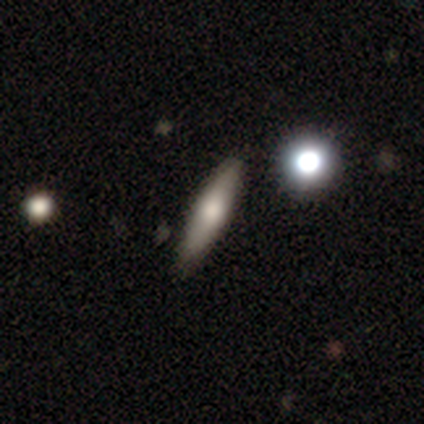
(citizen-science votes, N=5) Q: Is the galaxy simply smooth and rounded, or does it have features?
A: smooth — 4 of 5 (80%).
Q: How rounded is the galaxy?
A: cigar-shaped — 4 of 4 (100%).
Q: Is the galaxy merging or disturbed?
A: none — 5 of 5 (100%).